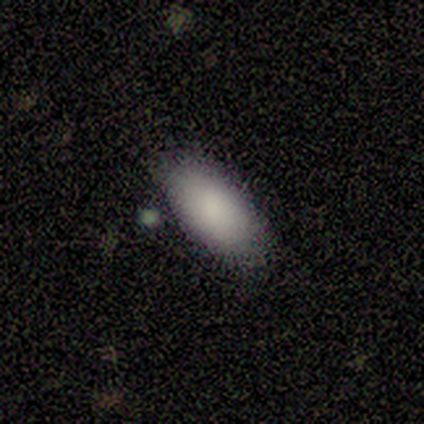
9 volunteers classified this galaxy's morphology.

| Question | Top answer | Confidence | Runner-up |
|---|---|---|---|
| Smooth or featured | smooth | 100% | — |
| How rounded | in between | 89% | cigar-shaped (11%) |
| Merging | none | 89% | minor disturbance (11%) |